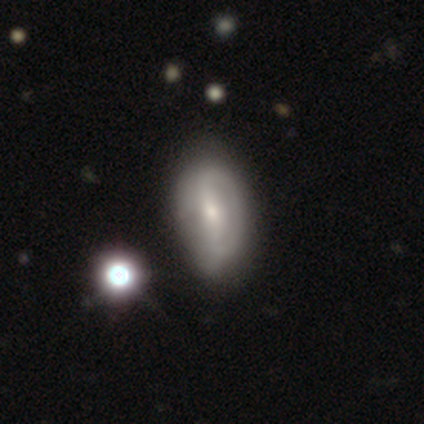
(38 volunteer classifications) A featured or disk galaxy (53%) with a strong bar (50%), 2 (60%) medium (50%) spiral arms (50%, tied with no) and a moderate central bulge (50%). Merging: none (56%).